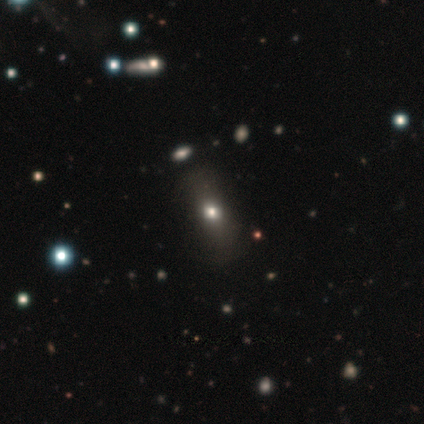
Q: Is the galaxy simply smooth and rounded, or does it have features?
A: smooth — 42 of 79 (53%).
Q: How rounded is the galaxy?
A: in between — 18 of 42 (43%).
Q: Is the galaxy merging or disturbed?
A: none — 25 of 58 (43%).